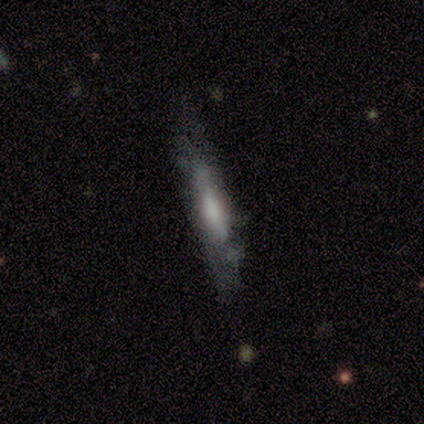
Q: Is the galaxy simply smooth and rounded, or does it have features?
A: featured or disk — 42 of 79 (53%).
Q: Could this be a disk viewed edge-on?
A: yes — 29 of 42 (69%).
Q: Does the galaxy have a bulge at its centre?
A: boxy — 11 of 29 (38%).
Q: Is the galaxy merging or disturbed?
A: none — 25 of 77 (32%).